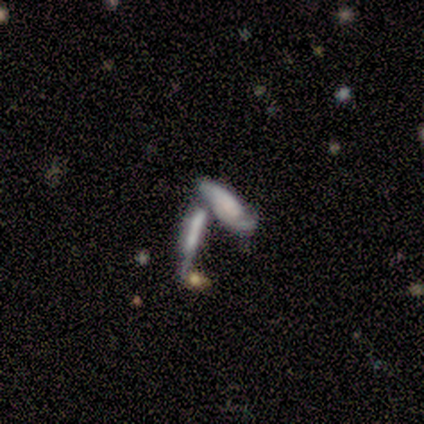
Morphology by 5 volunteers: A smooth galaxy with no disk features (60%) that is cigar-shaped (67%).

Vote fractions:
- Smooth or featured? smooth: 60% / featured or disk: 20% / star or artifact: 20%
- How rounded? cigar-shaped: 67% / in between: 33% / round: 0%
- Merging? merger: 50% / none: 25% / major disturbance: 25% / minor disturbance: 0%